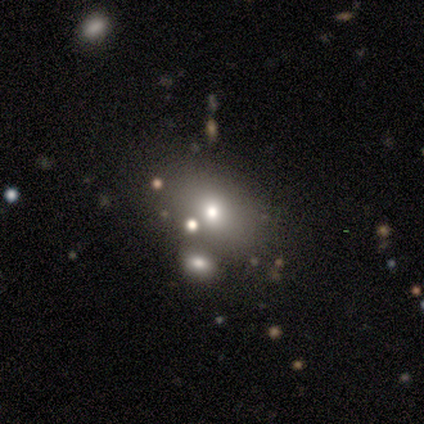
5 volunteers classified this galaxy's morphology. Smooth or featured? 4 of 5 (80%) said smooth. How rounded? 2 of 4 (50%, tied with in between) said round. Merging? 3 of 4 (75%) said none.